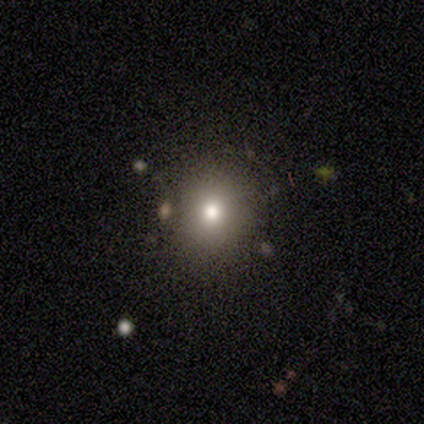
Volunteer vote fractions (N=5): This appears to be a smooth galaxy with no disk features (60%) that is round (100%). Merging: none (100%).